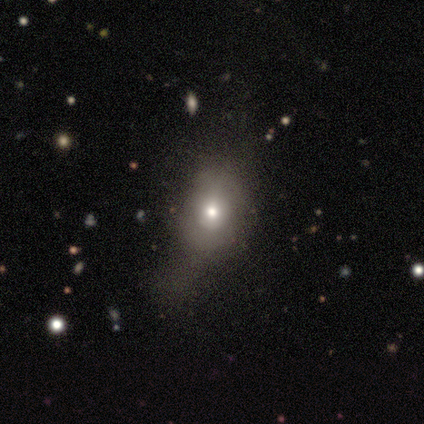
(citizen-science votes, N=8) This appears to be a smooth galaxy with no disk features (50%) that is round (50%, tied with in between). Merging: major disturbance (71%).